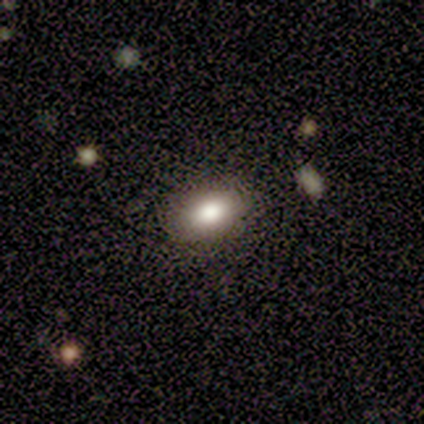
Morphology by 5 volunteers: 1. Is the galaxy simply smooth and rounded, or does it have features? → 80% smooth, 20% star or artifact, 0% featured or disk.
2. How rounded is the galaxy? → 100% in between, 0% round, 0% cigar-shaped.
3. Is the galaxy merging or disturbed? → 100% none, 0% minor disturbance, 0% major disturbance, 0% merger.